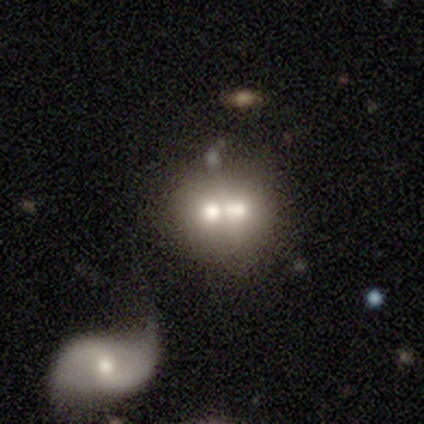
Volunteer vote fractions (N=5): A smooth galaxy with no disk features (100%) that is round (80%).

Vote fractions:
- Smooth or featured? smooth: 100% / featured or disk: 0% / star or artifact: 0%
- How rounded? round: 80% / in between: 20% / cigar-shaped: 0%
- Merging? merger: 80% / none: 20% / minor disturbance: 0% / major disturbance: 0%